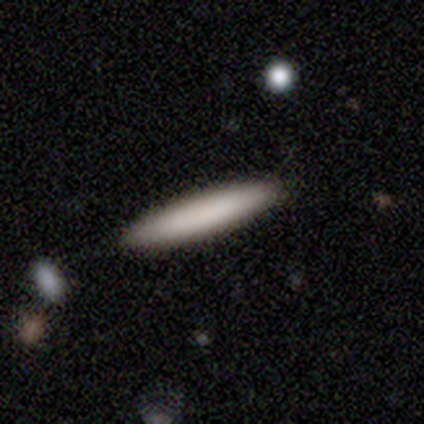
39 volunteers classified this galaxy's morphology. type=smooth (72%); roundness=cigar-shaped (93%); merging=none (88%).